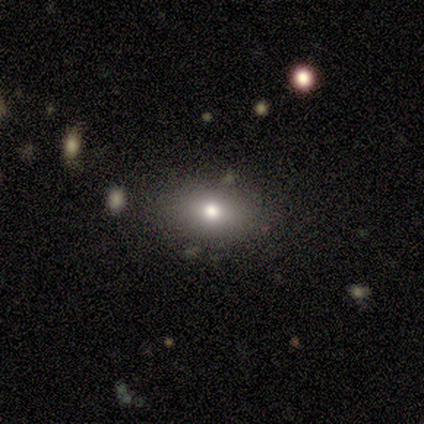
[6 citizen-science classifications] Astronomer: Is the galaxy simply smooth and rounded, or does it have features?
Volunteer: smooth — 100%.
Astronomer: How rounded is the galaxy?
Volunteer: in between — 83%.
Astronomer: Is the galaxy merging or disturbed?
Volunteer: none — 83%.